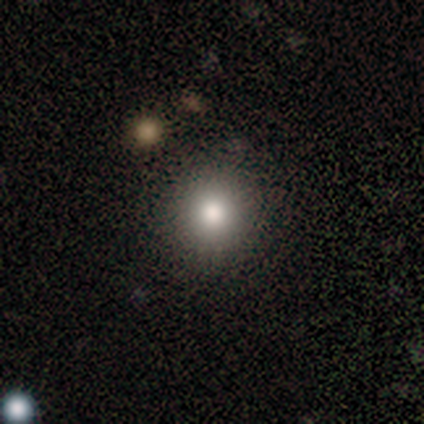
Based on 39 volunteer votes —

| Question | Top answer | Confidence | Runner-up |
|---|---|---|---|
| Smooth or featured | smooth | 77% | featured or disk (18%) |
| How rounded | round | 90% | in between (10%) |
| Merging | none | 86% | minor disturbance (5%) |